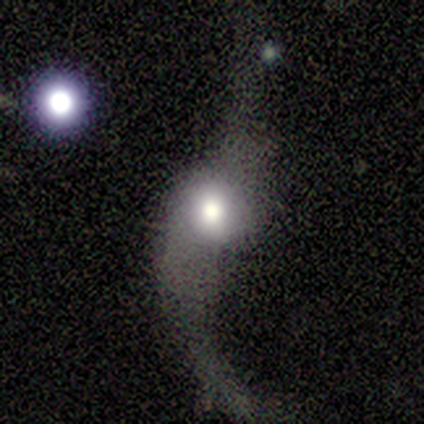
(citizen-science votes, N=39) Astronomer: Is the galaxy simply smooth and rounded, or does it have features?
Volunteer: featured or disk — 67%.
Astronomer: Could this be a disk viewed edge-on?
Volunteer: no — 85%.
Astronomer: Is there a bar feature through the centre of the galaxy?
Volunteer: no — 59%.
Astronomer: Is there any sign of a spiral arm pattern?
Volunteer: yes — 86%.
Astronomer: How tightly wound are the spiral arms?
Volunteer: loose — 100%.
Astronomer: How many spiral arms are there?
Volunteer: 2 — 95%.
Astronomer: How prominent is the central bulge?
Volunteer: large — 55% (runner-up: moderate, 41%).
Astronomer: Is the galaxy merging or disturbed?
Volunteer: major disturbance — 42% (runner-up: none, 33%).